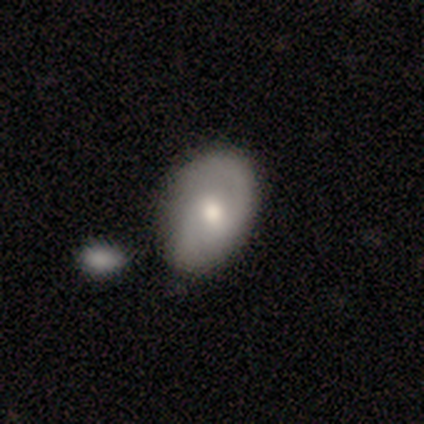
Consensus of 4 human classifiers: A featured or disk galaxy (75%) with a weak bar (67%), 2 (100%) medium (100%) spiral arms (100%) and a moderate central bulge (100%).

Vote fractions:
- Smooth or featured? featured or disk: 75% / smooth: 25% / star or artifact: 0%
- Edge-on disk? no: 100% / yes: 0%
- Bar? weak: 67% / no: 33% / strong: 0%
- Spiral arms? yes: 100% / no: 0%
- Spiral winding? medium: 100% / tight: 0% / loose: 0%
- Spiral arm count? 2: 100% / 1: 0% / 3: 0% / 4: 0% / more than 4: 0% / can't tell: 0%
- Bulge size? moderate: 100% / dominant: 0% / large: 0% / small: 0% / none: 0%
- Merging? minor disturbance: 50% / none: 25% / merger: 25% / major disturbance: 0%